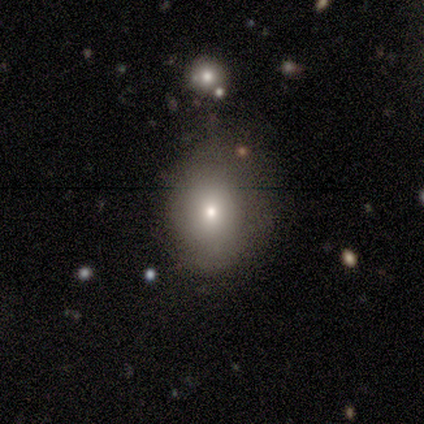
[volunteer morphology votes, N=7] Smooth or featured: smooth — 86% (featured or disk — 14%)
How rounded: round — 50% (tied with in between — 50%)
Merging: none — 86% (minor disturbance — 14%)